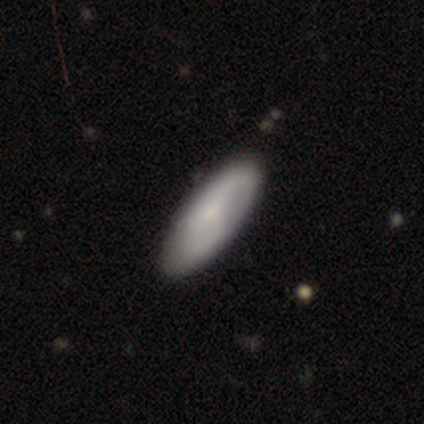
A smooth galaxy with no disk features (59%) that is in between round and cigar-shaped (68%). Merging: none (50%).